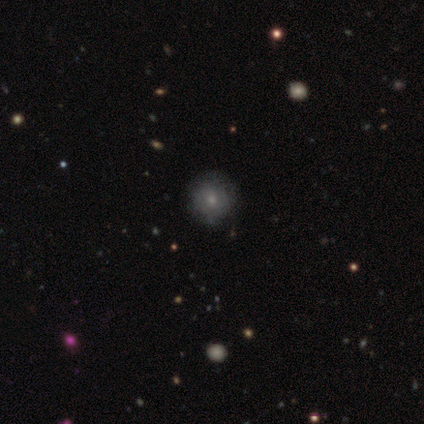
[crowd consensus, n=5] Q: Smooth or featured?
A: smooth (60%); runner-up: featured or disk (40%)
Q: How rounded?
A: round (100%)
Q: Merging?
A: none (80%); runner-up: minor disturbance (20%)